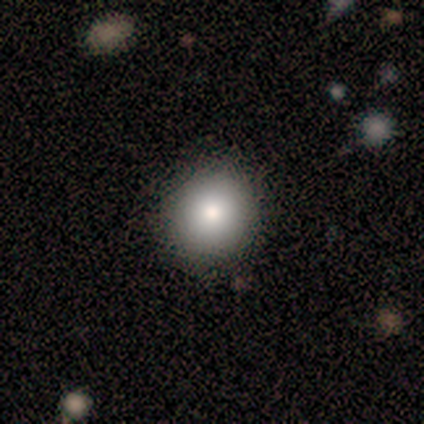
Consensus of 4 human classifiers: Volunteers were most divided on "how rounded": round: 75%, in between: 25%, cigar-shaped: 0%. More confident: smooth or featured — smooth (100%); merging — none (100%).